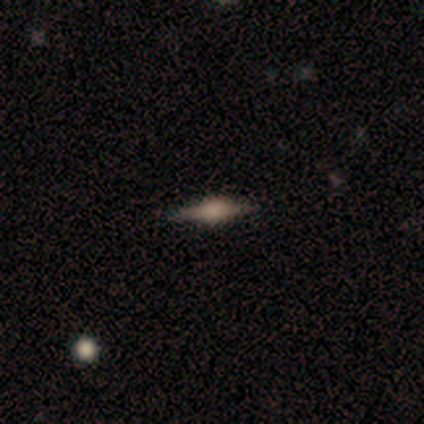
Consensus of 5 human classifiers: Morphology: type=featured or disk (80%); edge-on=yes (100%); edge-on bulge=boxy (50%, tied with rounded); merging=none (80%).